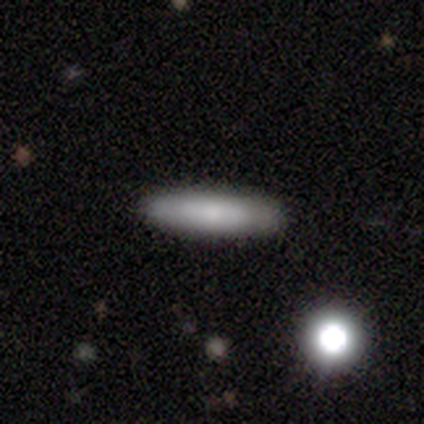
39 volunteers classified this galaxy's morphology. A smooth galaxy with no disk features (69%) that is cigar-shaped (81%). Merging: none (91%).